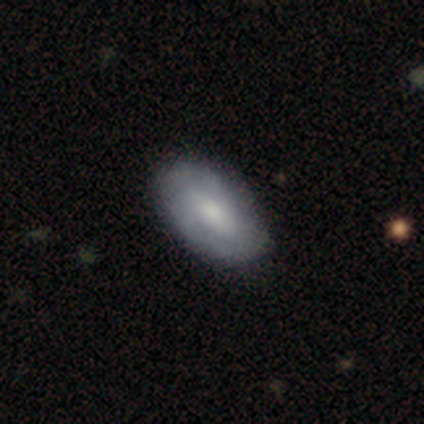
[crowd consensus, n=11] Smooth or featured?
  - smooth: 64% *
  - featured or disk: 27%
  - star or artifact: 9%
How rounded?
  - in between: 100% *
  - round: 0%
  - cigar-shaped: 0%
Merging?
  - none: 90% *
  - minor disturbance: 10%
  - major disturbance: 0%
  - merger: 0%